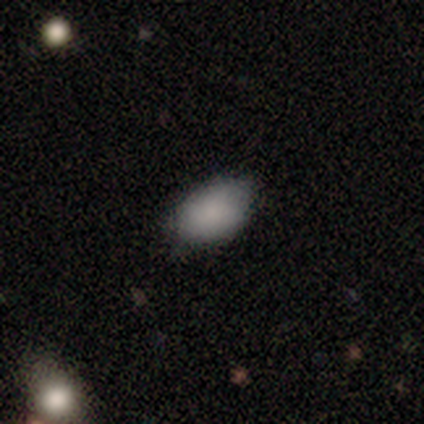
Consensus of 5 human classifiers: Q: Smooth or featured?
A: smooth (100%)
Q: How rounded?
A: in between (100%)
Q: Merging?
A: none (60%); runner-up: minor disturbance (20%)